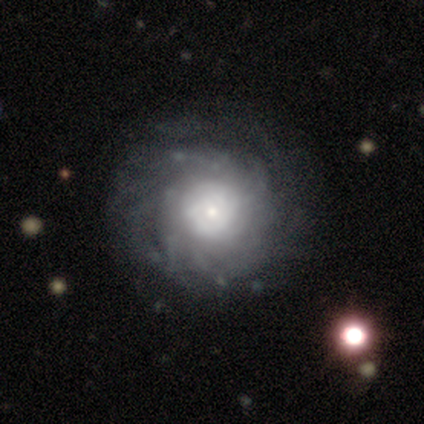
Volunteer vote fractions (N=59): This is clearly a featured or disk galaxy (85%). It is clearly not viewed edge-on (100%). Bar: clearly no (90%). Spiral arm pattern: clearly yes (90%). Spiral arm count: possibly more than 4 (51%). Spiral winding: likely tight (71%). Central bulge: possibly small (50%). Merging: likely none (64%).